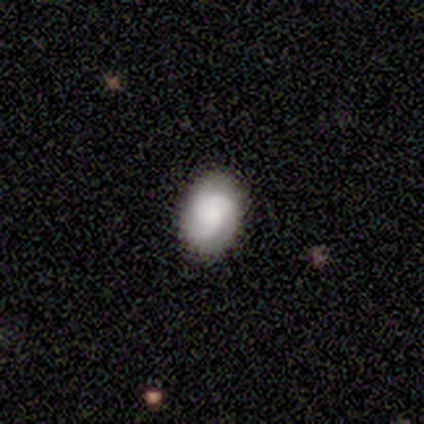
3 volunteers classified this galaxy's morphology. smooth-or-featured: featured or disk: 100% | smooth: 0% | star or artifact: 0%
  disk-edge-on: no: 67% | yes: 33%
    bar: no: 100% | strong: 0% | weak: 0%
    has-spiral-arms: yes: 100% | no: 0%
      spiral-winding: tight: 100% | medium: 0% | loose: 0%
      spiral-arm-count: 3: 100% | 1: 0% | 2: 0% | 4: 0% | more than 4: 0% | can't tell: 0%
    bulge-size: moderate: 50% (tied) | none: 50% (tied) | dominant: 0% | large: 0% | small: 0%
  merging: none: 67% | minor disturbance: 33% | major disturbance: 0% | merger: 0%